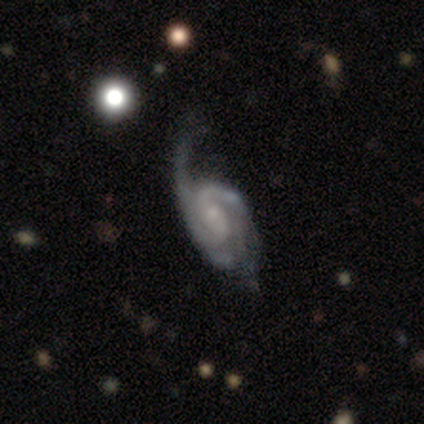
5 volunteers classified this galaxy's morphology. Smooth or featured: featured or disk — 80% (star or artifact — 20%)
Edge-on disk: no — 75% (yes — 25%)
Bar: weak — 67% (no — 33%)
Spiral arms: yes — 100%
Spiral winding: tight — 100%
Spiral arm count: 2 — 67% (3 — 33%)
Bulge size: small — 100%
Merging: none — 50% (major disturbance — 25%)